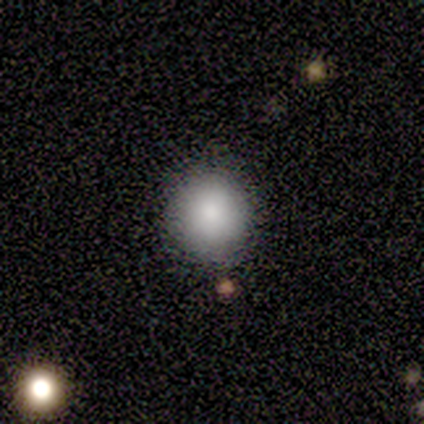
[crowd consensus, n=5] This is clearly a smooth galaxy (80%). How rounded: clearly round (100%). Merging: clearly none (100%).